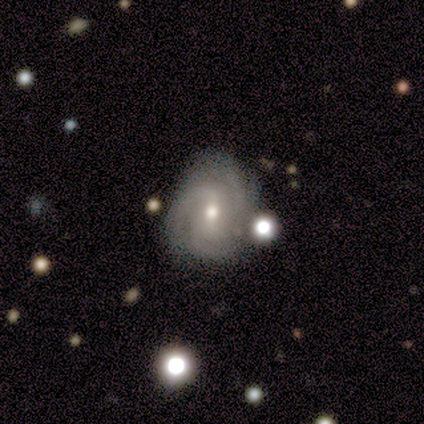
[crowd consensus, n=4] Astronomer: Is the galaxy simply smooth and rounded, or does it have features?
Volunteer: featured or disk — 100%.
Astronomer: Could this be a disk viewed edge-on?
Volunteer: no — 100%.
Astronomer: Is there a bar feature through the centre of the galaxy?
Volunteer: weak — 50%, tied with no at 50%.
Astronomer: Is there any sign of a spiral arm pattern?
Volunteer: yes — 100%.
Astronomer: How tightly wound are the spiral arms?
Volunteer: tight — 75%.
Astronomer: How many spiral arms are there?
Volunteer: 2 — 25%, tied with 3, 4 and can't tell at 25%.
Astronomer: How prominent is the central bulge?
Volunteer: small — 75%.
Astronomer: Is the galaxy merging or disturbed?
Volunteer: none — 100%.